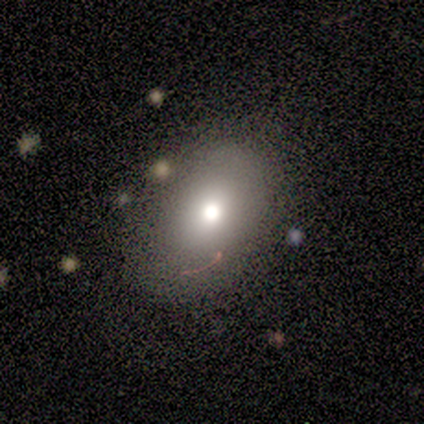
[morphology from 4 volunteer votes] Smooth or featured? 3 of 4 (75%) said smooth. How rounded? 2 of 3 (67%) said in between. Merging? 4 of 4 (100%) said none.